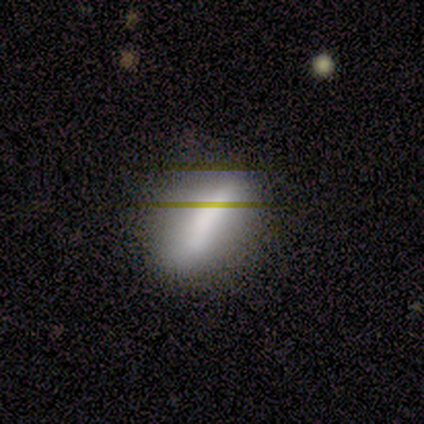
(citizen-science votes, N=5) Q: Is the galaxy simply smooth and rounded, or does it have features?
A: smooth — 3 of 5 (60%).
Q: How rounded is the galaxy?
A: in between — 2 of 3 (67%).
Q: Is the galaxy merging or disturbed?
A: none — 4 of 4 (100%).